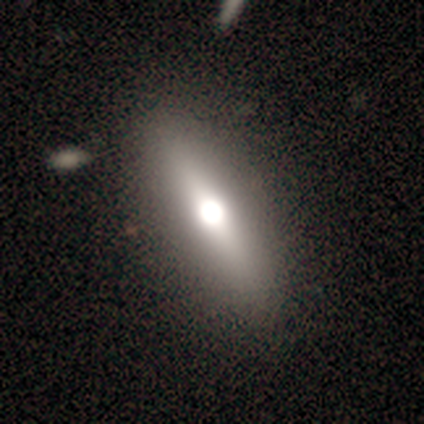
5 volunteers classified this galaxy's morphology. Smooth or featured: featured or disk — 40% (tied with star or artifact — 40%)
Edge-on disk: yes — 50% (tied with no — 50%)
Edge-on bulge: rounded — 100%
Merging: none — 100%